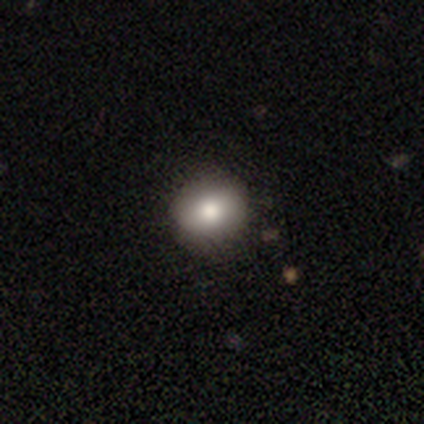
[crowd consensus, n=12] Morphology: type=smooth (67%); roundness=round (75%); merging=none (78%).